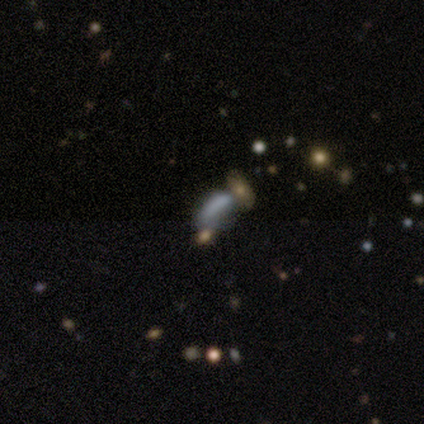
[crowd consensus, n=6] A smooth galaxy with no disk features (67%) that is in between round and cigar-shaped (50%, tied with cigar-shaped). Merging: merger (50%).